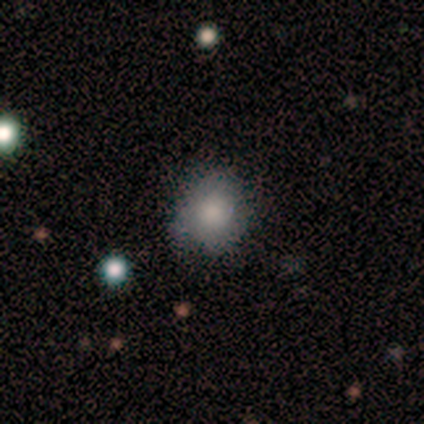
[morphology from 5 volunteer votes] This appears to be a smooth galaxy with no disk features (80%) that is round (100%). Merging: none (75%).